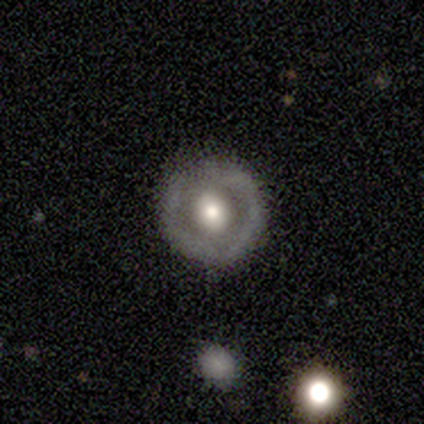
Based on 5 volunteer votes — Smooth or featured? 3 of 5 (60%) said featured or disk. Edge-on disk? 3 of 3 (100%) said no. Bar? 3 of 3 (100%) said no. Spiral arms? 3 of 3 (100%) said no. Bulge size? 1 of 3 (33%, tied with moderate and none) said large. Merging? 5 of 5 (100%) said none.